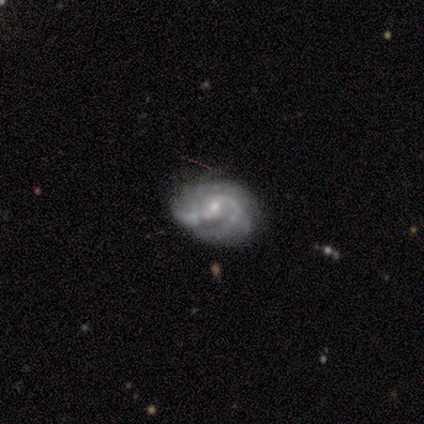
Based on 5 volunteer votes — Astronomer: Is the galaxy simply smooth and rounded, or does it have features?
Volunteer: featured or disk — 100%.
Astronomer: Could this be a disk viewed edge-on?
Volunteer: no — 80%.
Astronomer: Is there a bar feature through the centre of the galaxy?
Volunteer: no — 50%.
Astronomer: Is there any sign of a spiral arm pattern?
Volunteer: yes — 50%, tied with no at 50%.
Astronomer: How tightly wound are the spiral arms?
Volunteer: tight — 50%, tied with medium at 50%.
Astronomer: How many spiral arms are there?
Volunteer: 3 — 50%, tied with can't tell at 50%.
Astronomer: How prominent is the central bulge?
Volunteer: small — 75%.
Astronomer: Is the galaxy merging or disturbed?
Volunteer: none — 40%, tied with minor disturbance at 40%.